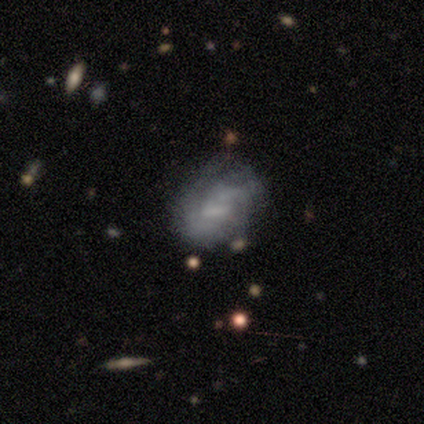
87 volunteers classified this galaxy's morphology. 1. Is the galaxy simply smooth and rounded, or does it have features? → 55% featured or disk, 37% smooth, 8% star or artifact.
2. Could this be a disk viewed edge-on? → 100% no, 0% yes.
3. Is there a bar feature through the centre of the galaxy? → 48% weak, 42% no, 10% strong.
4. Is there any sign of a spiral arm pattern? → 56% yes, 44% no.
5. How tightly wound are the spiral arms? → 63% tight, 33% medium, 4% loose.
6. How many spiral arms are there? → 52% can't tell, 37% 2, 7% 3, 4% 1, 0% 4, 0% more than 4.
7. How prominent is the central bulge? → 62% none, 27% small, 8% moderate, 2% large, 0% dominant.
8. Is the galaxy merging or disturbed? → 48% none, 30% minor disturbance, 15% major disturbance, 8% merger.